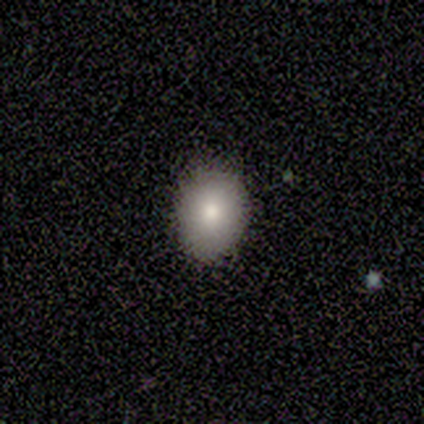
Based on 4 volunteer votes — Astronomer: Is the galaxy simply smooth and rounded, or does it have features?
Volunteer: smooth — 75%.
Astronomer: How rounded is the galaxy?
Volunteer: in between — 67%.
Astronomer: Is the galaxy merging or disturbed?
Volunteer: none — 100%.